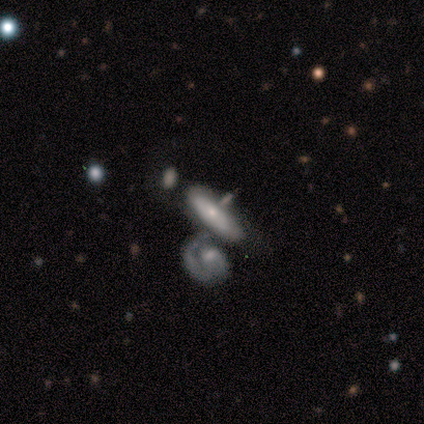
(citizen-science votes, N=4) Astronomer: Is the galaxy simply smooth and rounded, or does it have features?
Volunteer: featured or disk — 50%.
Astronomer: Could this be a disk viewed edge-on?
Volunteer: no — 100%.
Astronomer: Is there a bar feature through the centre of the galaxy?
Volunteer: no — 100%.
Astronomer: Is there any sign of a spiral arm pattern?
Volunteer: yes — 50%, tied with no at 50%.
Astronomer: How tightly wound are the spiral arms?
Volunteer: tight — 100%.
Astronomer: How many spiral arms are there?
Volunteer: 1 — 100%.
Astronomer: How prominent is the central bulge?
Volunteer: small — 100%.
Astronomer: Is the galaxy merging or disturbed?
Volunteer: none — 33%, tied with minor disturbance and merger at 33%.